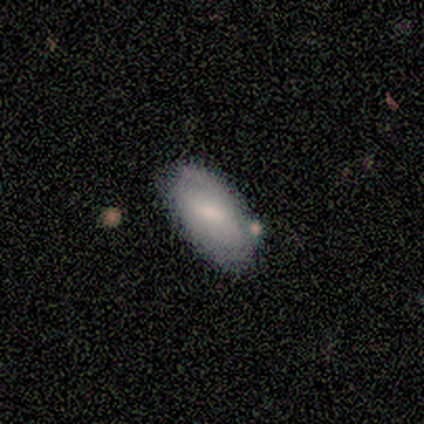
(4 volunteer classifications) Morphology: type=smooth (75%); roundness=in between (100%); merging=none (100%).